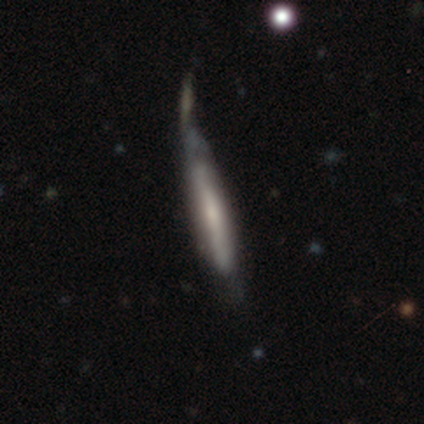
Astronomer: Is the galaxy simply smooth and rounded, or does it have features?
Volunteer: featured or disk — 69%.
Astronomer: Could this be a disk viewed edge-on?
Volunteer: yes — 85%.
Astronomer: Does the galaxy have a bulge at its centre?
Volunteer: none — 43%, tied with rounded at 43%.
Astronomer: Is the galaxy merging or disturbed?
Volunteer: none — 29% (runner-up: merger, 26%).